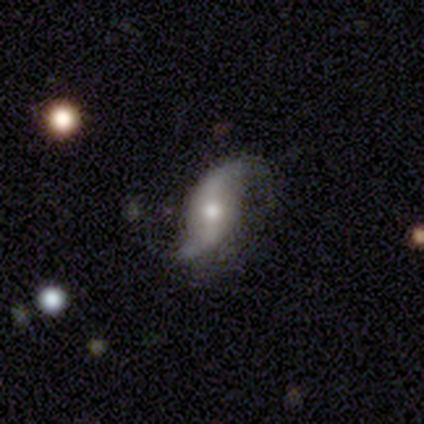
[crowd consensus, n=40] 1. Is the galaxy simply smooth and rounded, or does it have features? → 95% featured or disk, 5% star or artifact, 0% smooth.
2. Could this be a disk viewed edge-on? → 95% no, 5% yes.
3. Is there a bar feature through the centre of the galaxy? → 42% weak, 31% no, 28% strong.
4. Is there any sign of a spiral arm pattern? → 94% yes, 6% no.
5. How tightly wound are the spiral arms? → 94% loose, 6% medium, 0% tight.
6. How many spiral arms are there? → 88% 2, 9% 1, 3% can't tell, 0% 3, 0% 4, 0% more than 4.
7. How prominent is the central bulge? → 64% moderate, 28% small, 6% large, 3% none, 0% dominant.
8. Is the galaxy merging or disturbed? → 71% none, 24% minor disturbance, 5% major disturbance, 0% merger.